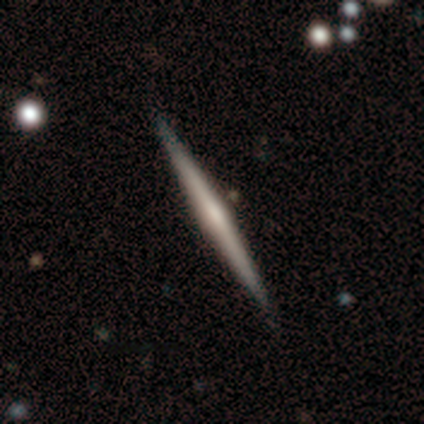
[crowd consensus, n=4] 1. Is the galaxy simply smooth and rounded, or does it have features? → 50% smooth, 25% featured or disk, 25% star or artifact.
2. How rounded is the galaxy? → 100% cigar-shaped, 0% round, 0% in between.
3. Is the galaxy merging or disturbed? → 100% none, 0% minor disturbance, 0% major disturbance, 0% merger.